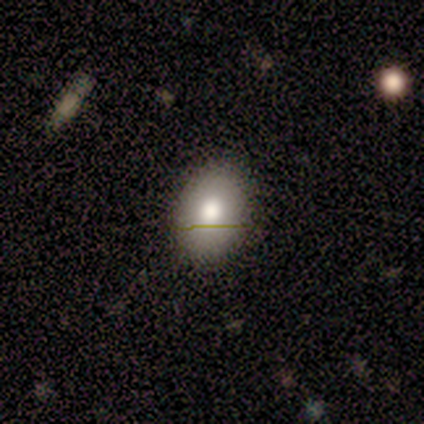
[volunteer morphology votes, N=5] Smooth or featured? 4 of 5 (80%) said smooth. How rounded? 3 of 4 (75%) said in between. Merging? 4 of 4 (100%) said none.